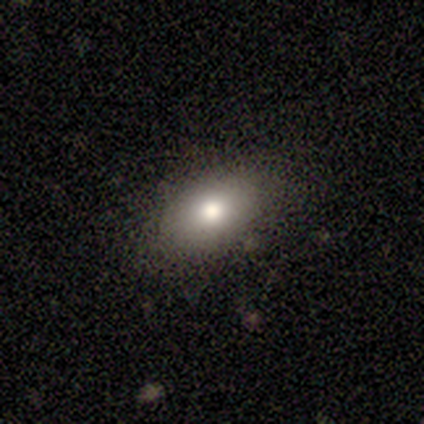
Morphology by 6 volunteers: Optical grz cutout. It shows a smooth galaxy with no disk features (83%) that is in between round and cigar-shaped (100%). Merging: none (83%).